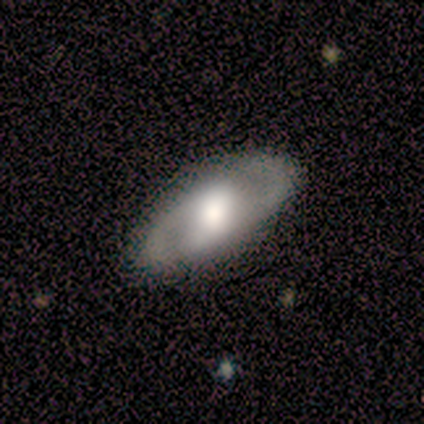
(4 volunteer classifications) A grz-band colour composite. It shows a smooth galaxy with no disk features (50%, tied with featured or disk) that is in between round and cigar-shaped (100%). Merging: none (100%).